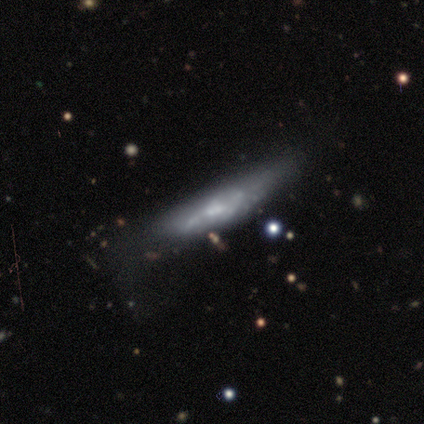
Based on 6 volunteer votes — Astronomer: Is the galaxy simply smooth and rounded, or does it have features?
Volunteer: featured or disk — 83%.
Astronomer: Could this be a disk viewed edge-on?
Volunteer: no — 60% (runner-up: yes, 40%).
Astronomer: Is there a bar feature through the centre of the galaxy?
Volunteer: no — 100%.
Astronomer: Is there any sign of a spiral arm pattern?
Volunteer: no — 100%.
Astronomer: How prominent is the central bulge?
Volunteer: large — 33%, tied with moderate and none at 33%.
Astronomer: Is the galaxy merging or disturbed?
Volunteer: major disturbance — 50% (runner-up: minor disturbance, 33%).